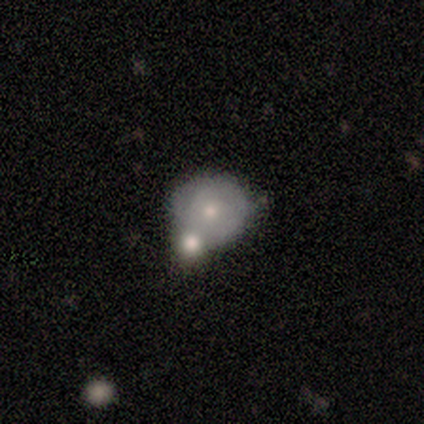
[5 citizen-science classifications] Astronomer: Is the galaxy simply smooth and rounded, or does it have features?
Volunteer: smooth — 80%.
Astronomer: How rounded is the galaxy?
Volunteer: round — 75%.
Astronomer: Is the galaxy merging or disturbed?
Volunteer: minor disturbance — 60%.